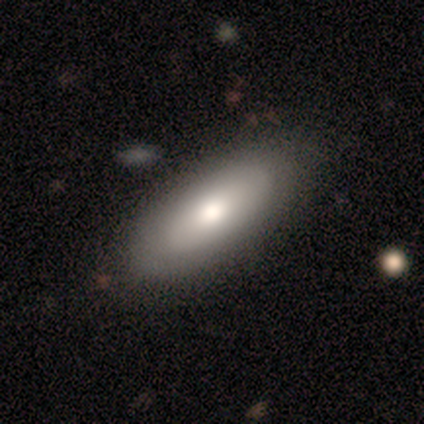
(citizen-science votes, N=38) This appears to be a smooth galaxy with no disk features (50%) that is in between round and cigar-shaped (74%). Merging: none (68%).